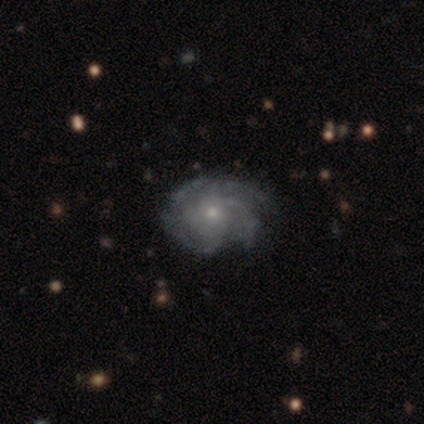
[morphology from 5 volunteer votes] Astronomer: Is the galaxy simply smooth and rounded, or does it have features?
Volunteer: featured or disk — 80%.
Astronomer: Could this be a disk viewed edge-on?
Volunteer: no — 100%.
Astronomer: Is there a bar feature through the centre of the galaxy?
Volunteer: no — 100%.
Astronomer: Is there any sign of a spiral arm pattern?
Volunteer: yes — 100%.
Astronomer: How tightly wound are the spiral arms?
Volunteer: tight — 50%, tied with medium at 50%.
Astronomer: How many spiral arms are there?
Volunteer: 3 — 75%.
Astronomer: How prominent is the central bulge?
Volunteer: moderate — 75%.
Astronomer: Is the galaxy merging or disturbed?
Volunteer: none — 80%.